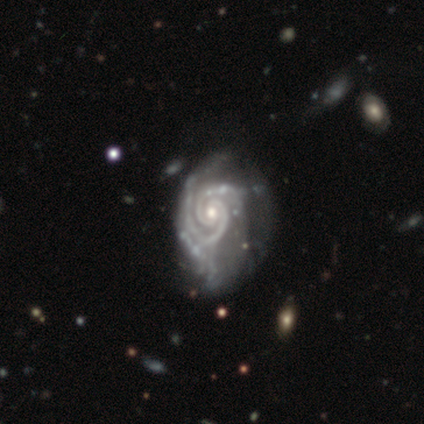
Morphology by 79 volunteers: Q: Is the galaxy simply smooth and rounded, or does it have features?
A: featured or disk — 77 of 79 (97%).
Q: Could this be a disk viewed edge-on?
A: no — 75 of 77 (97%).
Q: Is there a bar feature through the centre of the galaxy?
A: no — 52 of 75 (69%).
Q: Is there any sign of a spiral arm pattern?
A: yes — 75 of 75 (100%).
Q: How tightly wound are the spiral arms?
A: tight — 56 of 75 (75%).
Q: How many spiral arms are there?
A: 2 — 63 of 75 (84%).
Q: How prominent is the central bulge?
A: moderate — 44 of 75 (59%).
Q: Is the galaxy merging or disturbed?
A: none — 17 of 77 (22%).